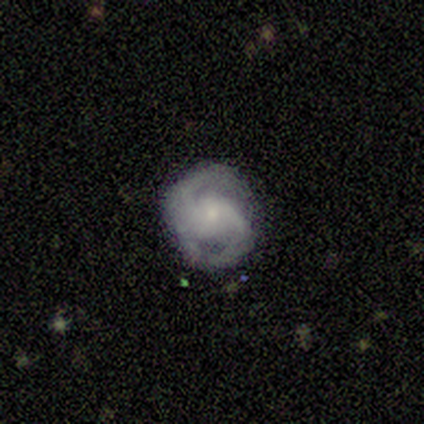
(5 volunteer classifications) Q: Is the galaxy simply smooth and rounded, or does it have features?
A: featured or disk — 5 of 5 (100%).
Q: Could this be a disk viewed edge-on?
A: no — 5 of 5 (100%).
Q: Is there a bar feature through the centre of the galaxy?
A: no — 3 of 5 (60%).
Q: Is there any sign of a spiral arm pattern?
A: yes — 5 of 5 (100%).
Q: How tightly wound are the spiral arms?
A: tight — 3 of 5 (60%).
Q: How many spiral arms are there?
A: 2 — 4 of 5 (80%).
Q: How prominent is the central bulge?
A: small — 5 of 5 (100%).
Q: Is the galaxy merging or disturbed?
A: none — 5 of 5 (100%).